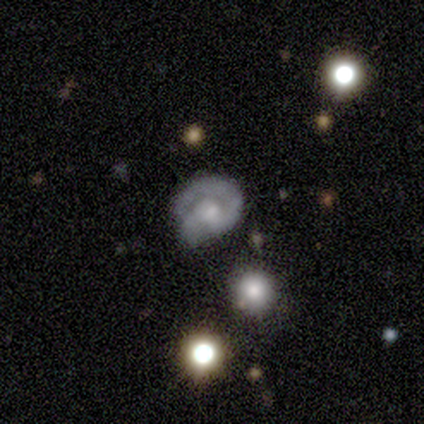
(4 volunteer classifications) This appears to be a featured or disk galaxy (75%) with no bar (100%), 1 (100%) loose (100%) spiral arms (50%, tied with no) and a large central bulge (50%, tied with none). Merging: minor disturbance (50%).